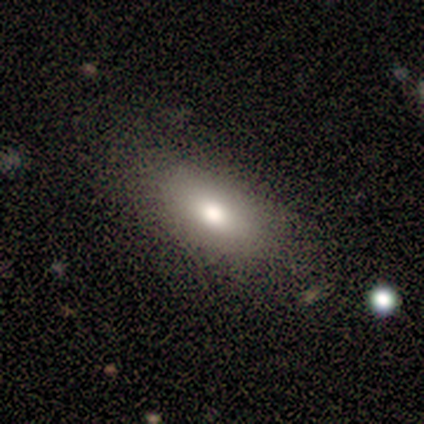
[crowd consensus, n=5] Smooth or featured: smooth — 100%
How rounded: in between — 80% (cigar-shaped — 20%)
Merging: none — 80% (minor disturbance — 20%)